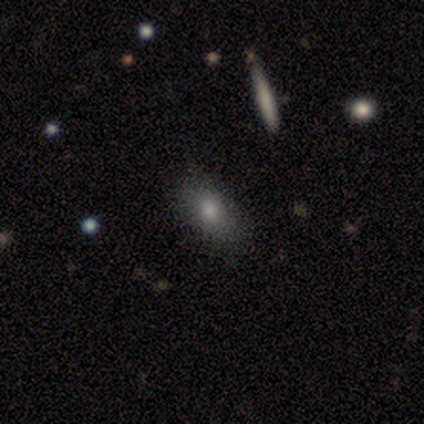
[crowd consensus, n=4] smooth_or_featured: smooth (p=0.75) [alt: featured or disk p=0.25]
how_rounded: in between (p=1.00)
merging: none (p=0.75) [alt: minor disturbance p=0.25]